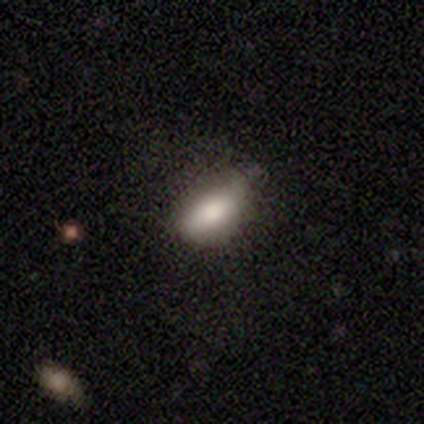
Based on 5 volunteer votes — Volunteers were most divided on "merging": minor disturbance: 60%, none: 20%, major disturbance: 20%, merger: 0%. More confident: how rounded — in between (100%); smooth or featured — smooth (80%).